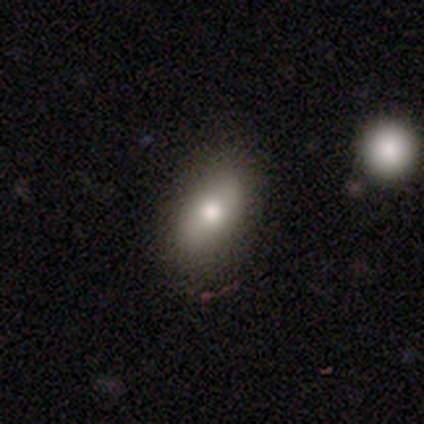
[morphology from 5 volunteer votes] This appears to be a smooth galaxy with no disk features (60%) that is in between round and cigar-shaped (100%). Merging: none (100%).